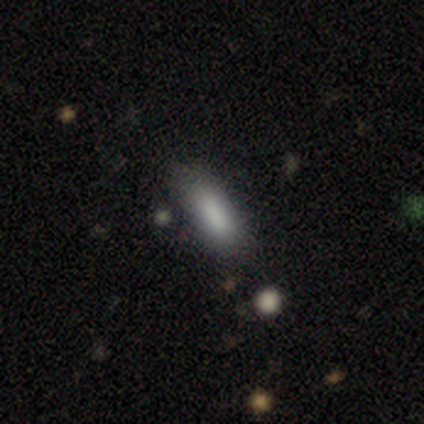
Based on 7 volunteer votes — smooth 71%, featured or disk 14%, star or artifact 14%. Down the decision tree: how rounded — in between (60%); merging — none (83%).